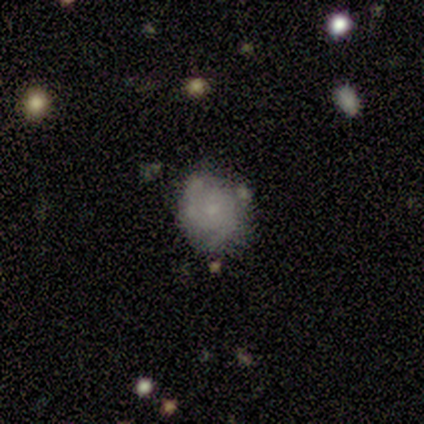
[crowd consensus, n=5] A smooth galaxy with no disk features (40%, tied with featured or disk) that is round (50%, tied with in between). Merging: merger (50%).